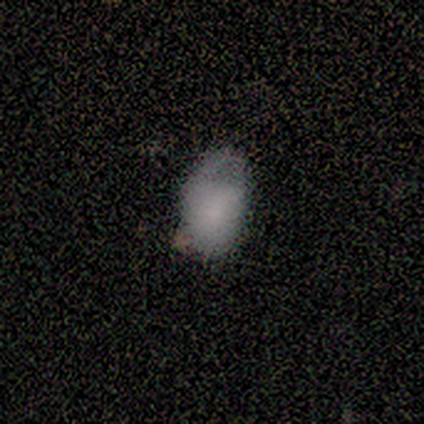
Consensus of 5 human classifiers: Smooth or featured? smooth (60%)
How rounded? in between (100%)
Merging? minor disturbance (60%)